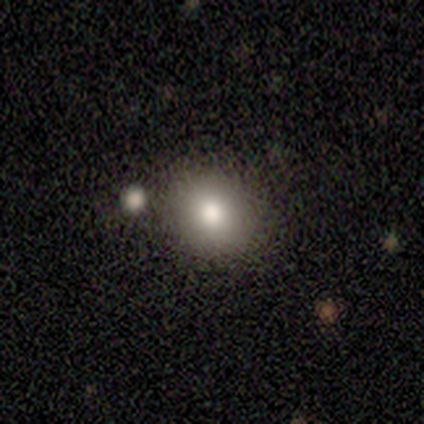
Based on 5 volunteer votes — smooth 100%, featured or disk 0%, star or artifact 0%. Down the decision tree: how rounded — round (80%); merging — none (100%).